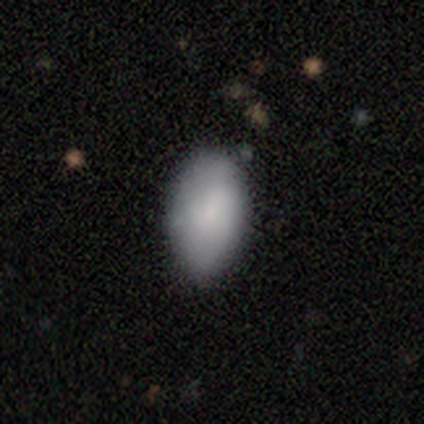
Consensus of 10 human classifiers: smooth 80%, featured or disk 10%, star or artifact 10%. Down the decision tree: how rounded — in between (100%); merging — none (100%).